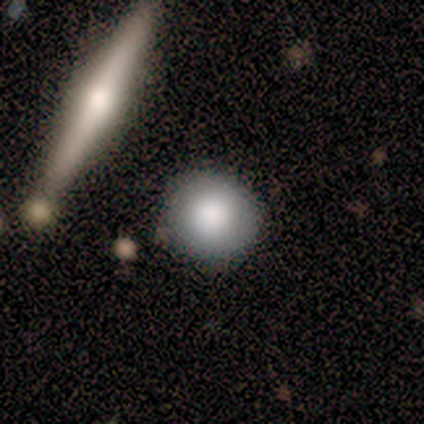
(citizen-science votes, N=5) smooth_or_featured: smooth (p=1.00)
how_rounded: round (p=1.00)
merging: none (p=1.00)